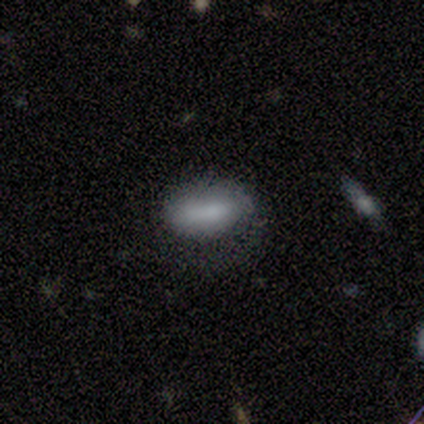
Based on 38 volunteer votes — smooth-or-featured: smooth: 63% | featured or disk: 32% | star or artifact: 5%
  how-rounded: in between: 83% | cigar-shaped: 17% | round: 0%
  merging: none: 50% | major disturbance: 28% | minor disturbance: 19% | merger: 3%